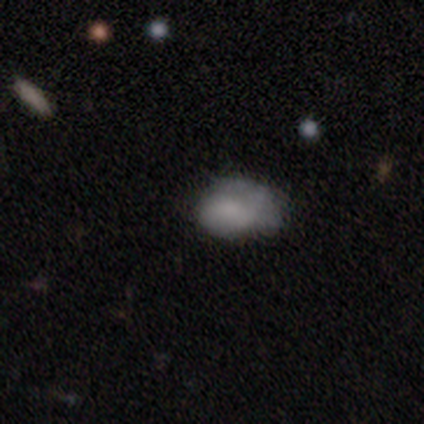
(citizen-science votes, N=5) Smooth or featured: featured or disk — 60% (smooth — 40%)
Edge-on disk: no — 67% (yes — 33%)
Bar: no — 100%
Spiral arms: no — 100%
Bulge size: small — 50% (tied with none — 50%)
Merging: none — 60% (minor disturbance — 40%)